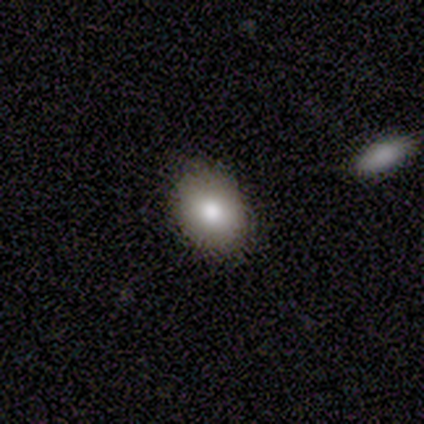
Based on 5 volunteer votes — Smooth or featured? smooth (80%)
How rounded? round (50%, tied with in between)
Merging? none (75%)